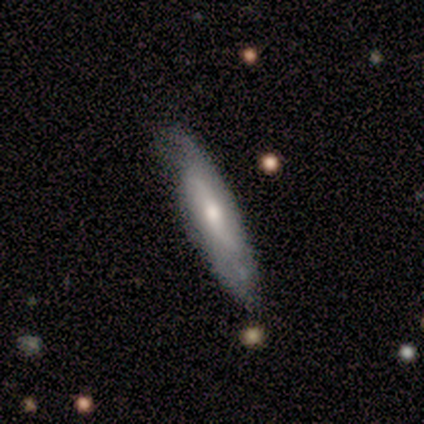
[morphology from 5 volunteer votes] Q: Smooth or featured?
A: featured or disk (80%); runner-up: smooth (20%)
Q: Edge-on disk?
A: yes (50%); tied with: no (50%)
Q: Edge-on bulge?
A: none (50%); tied with: rounded (50%)
Q: Merging?
A: none (100%)